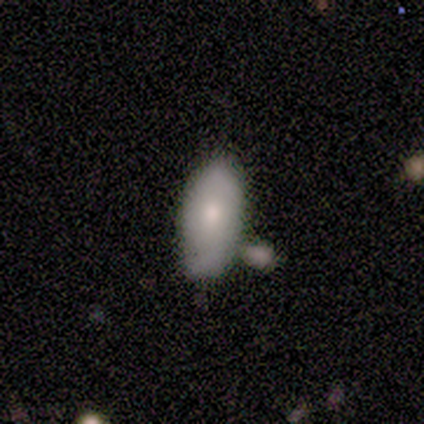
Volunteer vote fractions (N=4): Smooth or featured? smooth (75%)
How rounded? in between (100%)
Merging? none (50%)